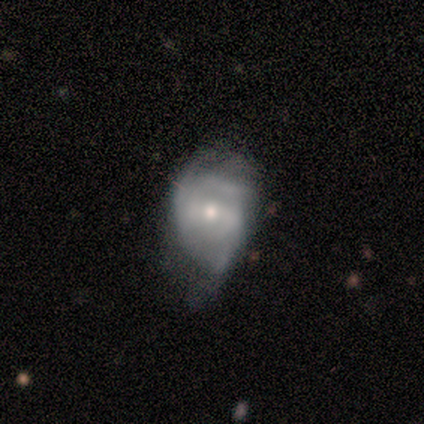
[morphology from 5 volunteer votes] Smooth or featured?
  - featured or disk: 100% *
  - smooth: 0%
  - star or artifact: 0%
Edge-on disk?
  - no: 100% *
  - yes: 0%
Bar?
  - weak: 40% * (tied)
  - no: 40% * (tied)
  - strong: 20%
Spiral arms?
  - yes: 100% *
  - no: 0%
Spiral winding?
  - loose: 60% *
  - tight: 40%
  - medium: 0%
Spiral arm count?
  - 2: 40% *
  - 3: 20%
  - 4: 20%
  - can't tell: 20%
  - 1: 0%
  - more than 4: 0%
Bulge size?
  - small: 60% *
  - moderate: 40%
  - dominant: 0%
  - large: 0%
  - none: 0%
Merging?
  - minor disturbance: 80% *
  - major disturbance: 20%
  - none: 0%
  - merger: 0%